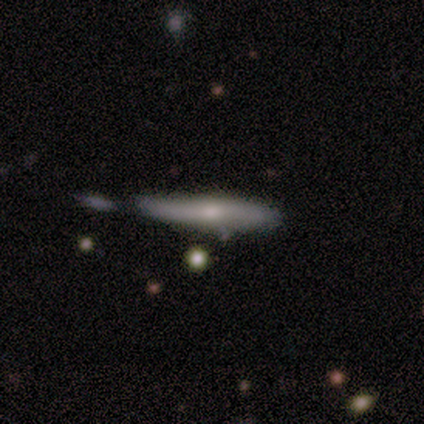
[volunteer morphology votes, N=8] A featured or disk galaxy (50%) viewed edge-on (100%) with no central bulge (75%).

Vote fractions:
- Smooth or featured? featured or disk: 50% / smooth: 25% / star or artifact: 25%
- Edge-on disk? yes: 100% / no: 0%
- Edge-on bulge? none: 75% / rounded: 25% / boxy: 0%
- Merging? minor disturbance: 50% / none: 17% / major disturbance: 17% / merger: 17%